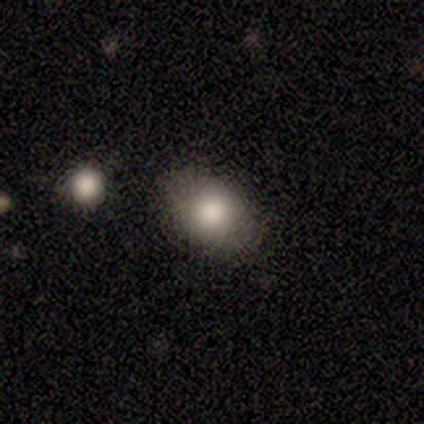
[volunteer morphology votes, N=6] A smooth galaxy with no disk features (83%) that is in between round and cigar-shaped (100%).

Vote fractions:
- Smooth or featured? smooth: 83% / star or artifact: 17% / featured or disk: 0%
- How rounded? in between: 100% / round: 0% / cigar-shaped: 0%
- Merging? none: 100% / minor disturbance: 0% / major disturbance: 0% / merger: 0%